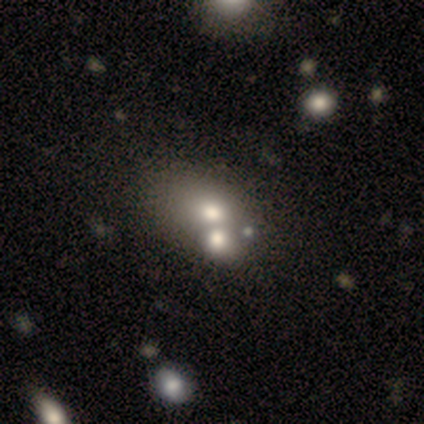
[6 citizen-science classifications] This appears to be a smooth galaxy with no disk features (67%) that is round (50%, tied with in between). Merging: merger (83%).